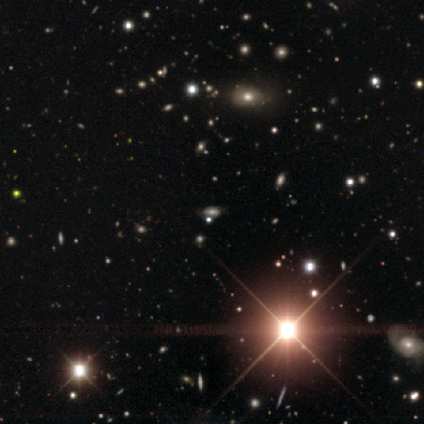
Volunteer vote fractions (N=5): A star or artifact, not a galaxy (60%).

Vote fractions:
- Smooth or featured? star or artifact: 60% / smooth: 40% / featured or disk: 0%